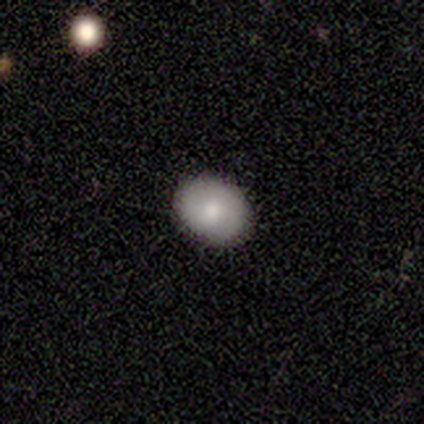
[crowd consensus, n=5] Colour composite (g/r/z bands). It shows a smooth galaxy with no disk features (80%) that is in between round and cigar-shaped (75%). Merging: none (100%).